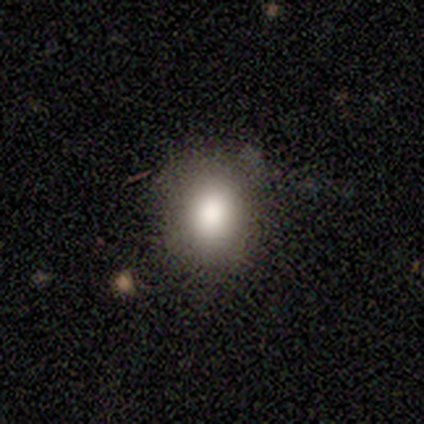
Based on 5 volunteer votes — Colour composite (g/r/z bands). It shows a smooth galaxy with no disk features (80%) that is round (50%, tied with in between). Merging: none (80%).